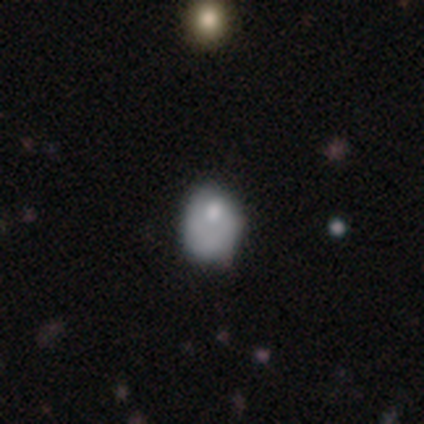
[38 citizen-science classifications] Volunteers were most divided on "how rounded": in between: 59%, round: 41%, cigar-shaped: 0%. More confident: smooth or featured — smooth (71%); merging — none (60%).